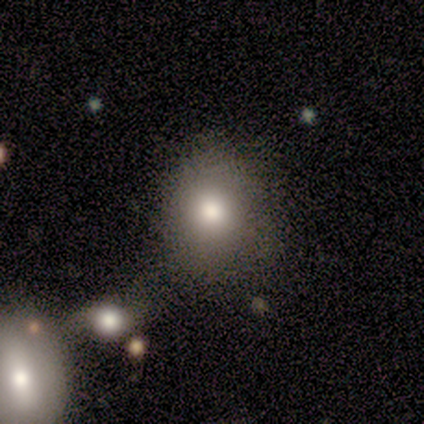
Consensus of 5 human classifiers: A smooth galaxy with no disk features (80%) that is round (75%). Merging: none (100%).